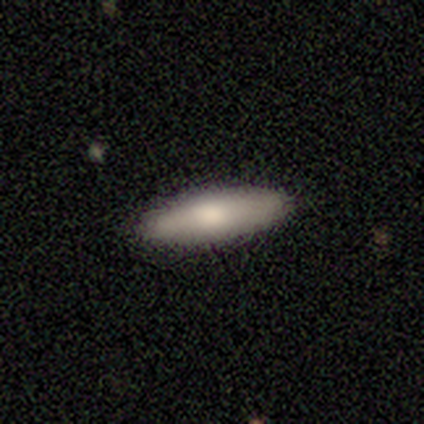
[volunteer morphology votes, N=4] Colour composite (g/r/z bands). It shows a smooth galaxy with no disk features (75%) that is cigar-shaped (67%). Merging: none (100%).